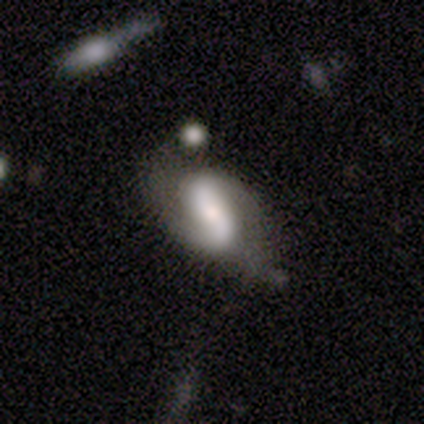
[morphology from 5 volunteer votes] featured or disk 60%, smooth 20%, star or artifact 20%. Down the decision tree: edge-on disk — no (100%); bar — weak (67%); spiral arms — yes (100%); spiral arm count — 2 (100%); spiral winding — medium (67%); bulge size — small (67%); merging — none (50%).